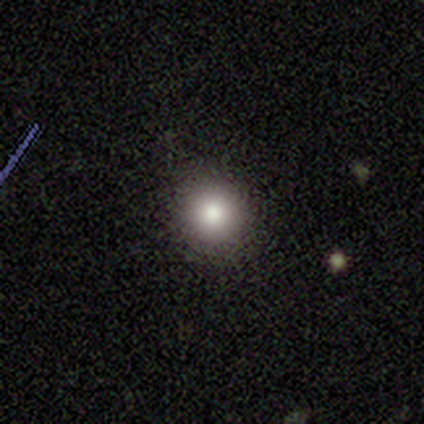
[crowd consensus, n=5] A smooth galaxy with no disk features (80%) that is round (100%).

Vote fractions:
- Smooth or featured? smooth: 80% / star or artifact: 20% / featured or disk: 0%
- How rounded? round: 100% / in between: 0% / cigar-shaped: 0%
- Merging? none: 100% / minor disturbance: 0% / major disturbance: 0% / merger: 0%